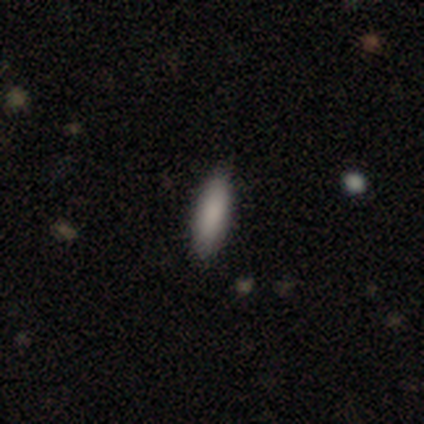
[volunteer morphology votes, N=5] Smooth or featured?
  - smooth: 60% *
  - featured or disk: 40%
  - star or artifact: 0%
How rounded?
  - cigar-shaped: 67% *
  - in between: 33%
  - round: 0%
Merging?
  - none: 80% *
  - minor disturbance: 20%
  - major disturbance: 0%
  - merger: 0%